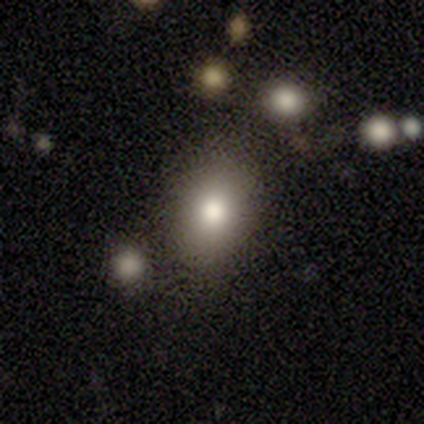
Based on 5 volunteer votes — Q: Smooth or featured?
A: smooth (100%)
Q: How rounded?
A: in between (80%); runner-up: round (20%)
Q: Merging?
A: none (100%)